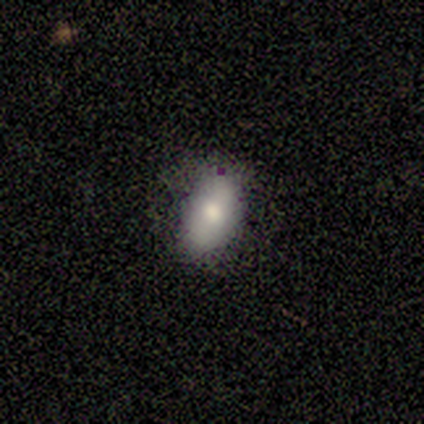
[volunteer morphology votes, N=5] Volunteers were most divided on "merging" (2-way tie): none: 50%, minor disturbance: 50%, major disturbance: 0%, merger: 0%. More confident: smooth or featured — smooth (80%); how rounded — in between (75%).